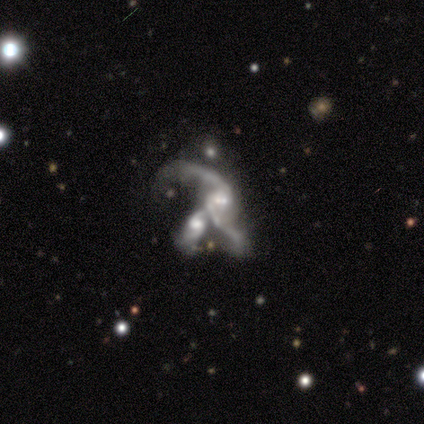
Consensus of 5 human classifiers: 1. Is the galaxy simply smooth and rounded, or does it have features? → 60% featured or disk, 40% star or artifact, 0% smooth.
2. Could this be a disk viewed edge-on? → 100% no, 0% yes.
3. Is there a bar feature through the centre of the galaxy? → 67% no, 33% weak, 0% strong.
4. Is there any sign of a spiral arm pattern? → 100% yes, 0% no.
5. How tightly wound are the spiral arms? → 100% loose, 0% tight, 0% medium.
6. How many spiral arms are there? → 100% 2, 0% 1, 0% 3, 0% 4, 0% more than 4, 0% can't tell.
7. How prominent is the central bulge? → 67% small, 33% moderate, 0% dominant, 0% large, 0% none.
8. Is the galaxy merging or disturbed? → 33% none (tied), 33% minor disturbance (tied), 33% merger (tied), 0% major disturbance.